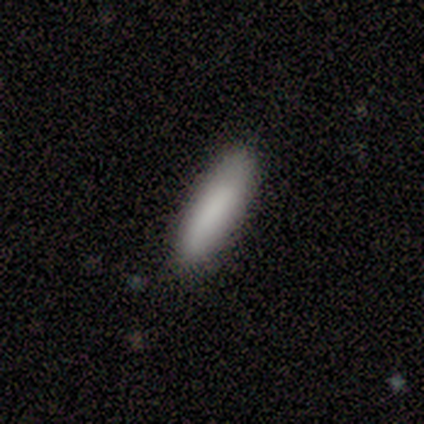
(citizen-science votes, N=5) This is likely a smooth galaxy (60%). How rounded: likely cigar-shaped (67%). Merging: possibly none (50%, tied with minor disturbance).